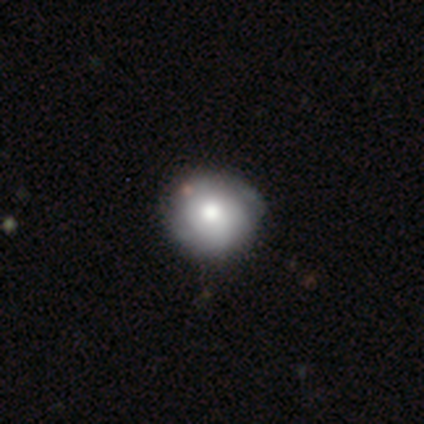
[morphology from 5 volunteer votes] Smooth or featured: smooth — 80% (featured or disk — 20%)
How rounded: round — 100%
Merging: none — 60% (minor disturbance — 40%)